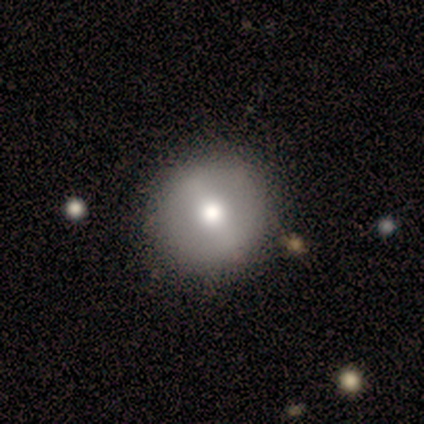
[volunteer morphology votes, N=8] Smooth or featured? 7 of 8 (88%) said smooth. How rounded? 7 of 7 (100%) said round. Merging? 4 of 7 (57%) said none.